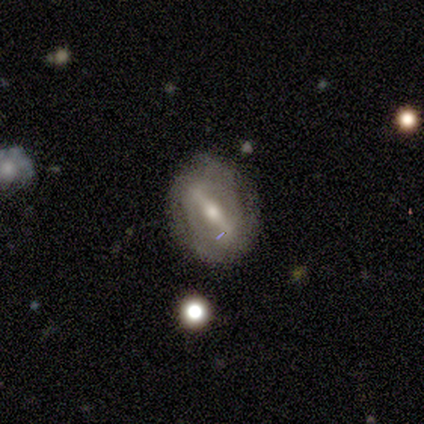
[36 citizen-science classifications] A featured or disk galaxy (83%) with a strong bar (83%), 2 (47%) tight (60%) spiral arms (65%) and a moderate central bulge (70%).

Vote fractions:
- Smooth or featured? featured or disk: 83% / smooth: 14% / star or artifact: 3%
- Edge-on disk? no: 77% / yes: 23%
- Bar? strong: 83% / weak: 13% / no: 4%
- Spiral arms? yes: 65% / no: 35%
- Spiral winding? tight: 60% / medium: 20% / loose: 20%
- Spiral arm count? 2: 47% / can't tell: 27% / 3: 13% / 1: 7% / 4: 7% / more than 4: 0%
- Bulge size? moderate: 70% / small: 26% / none: 4% / dominant: 0% / large: 0%
- Merging? none: 74% / minor disturbance: 17% / major disturbance: 6% / merger: 3%